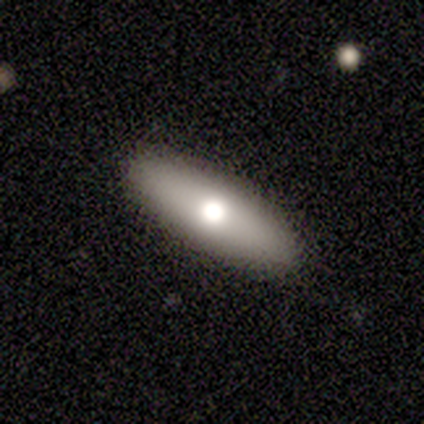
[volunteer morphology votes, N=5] This appears to be a smooth galaxy with no disk features (60%) that is in between round and cigar-shaped (67%). Merging: none (100%).